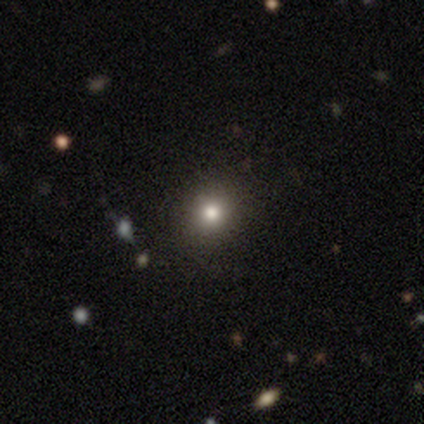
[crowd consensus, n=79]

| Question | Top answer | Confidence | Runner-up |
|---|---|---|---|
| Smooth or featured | smooth | 82% | featured or disk (9%) |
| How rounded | round | 89% | in between (9%) |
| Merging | none | 49% | minor disturbance (1%) |